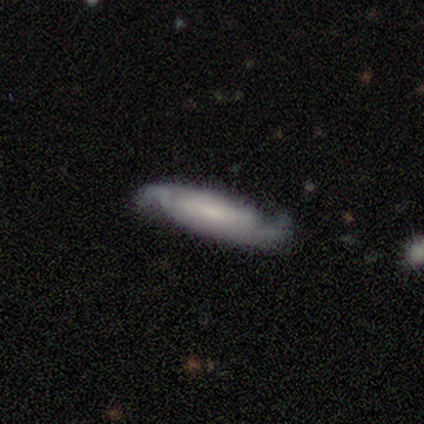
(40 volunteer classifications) Smooth or featured? 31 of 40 (78%) said featured or disk. Edge-on disk? 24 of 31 (77%) said no. Bar? 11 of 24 (46%) said no. Spiral arms? 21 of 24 (88%) said yes. Spiral winding? 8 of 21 (38%) said loose. Spiral arm count? 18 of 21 (86%) said 2. Bulge size? 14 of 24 (58%) said small. Merging? 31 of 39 (79%) said none.